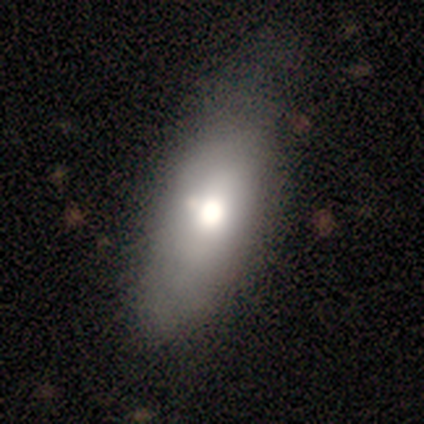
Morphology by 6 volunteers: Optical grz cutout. It shows a smooth galaxy with no disk features (100%) that is in between round and cigar-shaped (83%). Merging: none (50%, tied with minor disturbance).